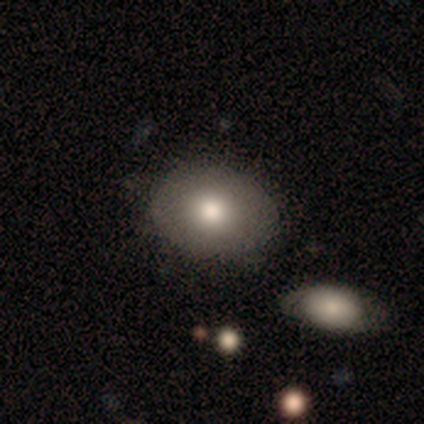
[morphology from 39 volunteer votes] Smooth or featured?
  - smooth: 77% *
  - featured or disk: 15%
  - star or artifact: 8%
How rounded?
  - in between: 63% *
  - round: 33%
  - cigar-shaped: 3%
Merging?
  - none: 92% *
  - minor disturbance: 6%
  - merger: 3%
  - major disturbance: 0%